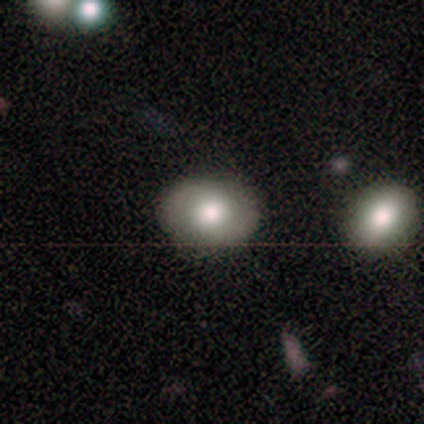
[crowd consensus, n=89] This is likely a smooth galaxy (61%). How rounded: possibly in between (52%). Merging: clearly none (88%).